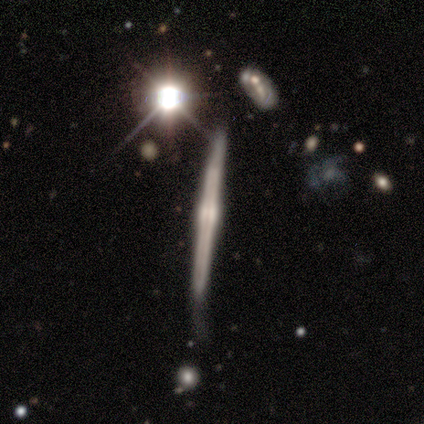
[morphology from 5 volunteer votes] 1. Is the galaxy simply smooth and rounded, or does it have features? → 100% featured or disk, 0% smooth, 0% star or artifact.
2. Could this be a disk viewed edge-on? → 100% yes, 0% no.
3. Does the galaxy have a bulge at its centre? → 80% rounded, 20% boxy, 0% none.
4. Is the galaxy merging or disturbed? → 60% none, 40% minor disturbance, 0% major disturbance, 0% merger.